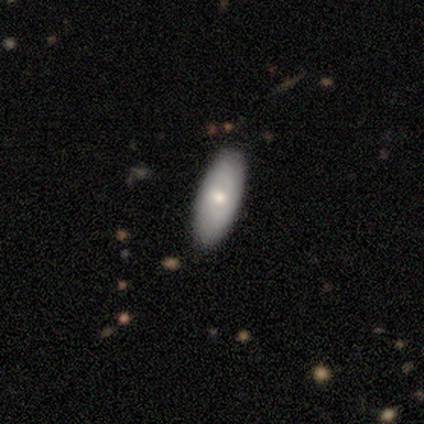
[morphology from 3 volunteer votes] A smooth galaxy with no disk features (67%) that is in between round and cigar-shaped (100%).

Vote fractions:
- Smooth or featured? smooth: 67% / featured or disk: 33% / star or artifact: 0%
- How rounded? in between: 100% / round: 0% / cigar-shaped: 0%
- Merging? none: 100% / minor disturbance: 0% / major disturbance: 0% / merger: 0%